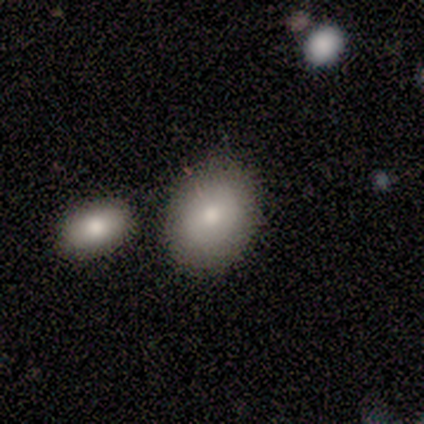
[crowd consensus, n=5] Smooth or featured? 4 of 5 (80%) said smooth. How rounded? 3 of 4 (75%) said in between. Merging? 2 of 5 (40%, tied with minor disturbance) said none.